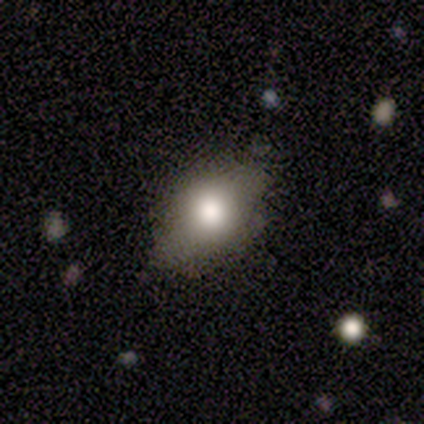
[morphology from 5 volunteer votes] This is clearly a smooth galaxy (80%). How rounded: clearly in between (100%). Merging: likely none (60%).